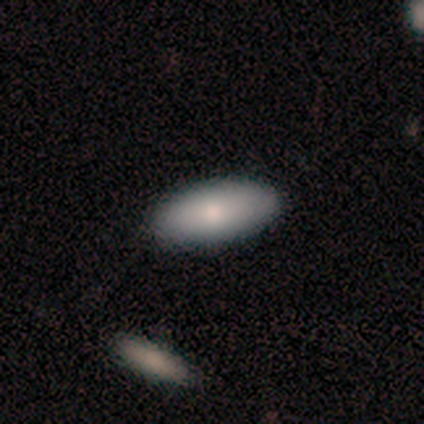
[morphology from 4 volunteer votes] Smooth or featured: smooth — 50% (tied with featured or disk — 50%)
How rounded: in between — 100%
Merging: none — 100%